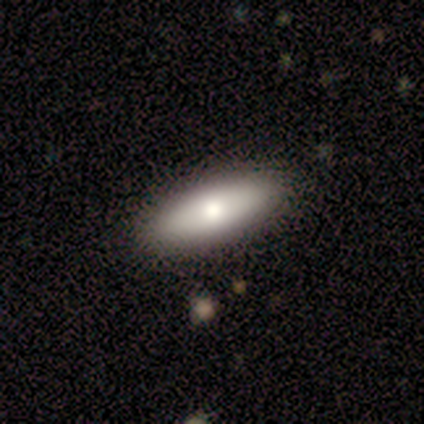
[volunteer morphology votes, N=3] Smooth or featured: smooth — 100%
How rounded: in between — 100%
Merging: none — 100%